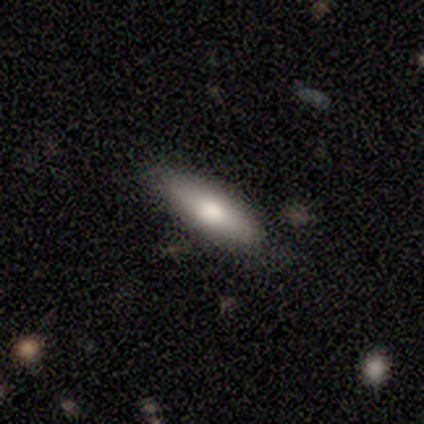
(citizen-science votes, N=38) This appears to be a smooth galaxy with no disk features (71%) that is in between round and cigar-shaped (63%). Merging: none (73%).